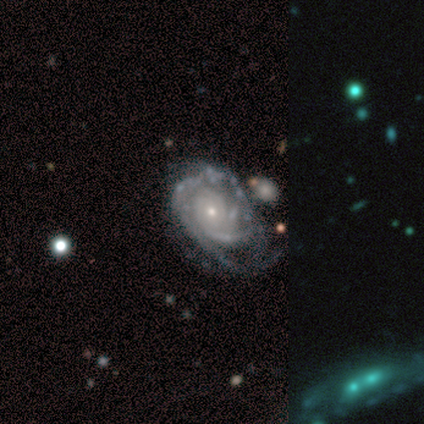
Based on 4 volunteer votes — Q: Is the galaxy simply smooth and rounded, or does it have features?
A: featured or disk — 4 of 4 (100%).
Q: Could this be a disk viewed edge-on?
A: no — 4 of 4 (100%).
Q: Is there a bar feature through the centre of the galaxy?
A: no — 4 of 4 (100%).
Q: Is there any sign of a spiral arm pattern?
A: yes — 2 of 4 (50%, tied with no).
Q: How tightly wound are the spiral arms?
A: tight — 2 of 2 (100%).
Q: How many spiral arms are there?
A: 1 — 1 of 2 (50%, tied with can't tell).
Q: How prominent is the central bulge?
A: small — 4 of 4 (100%).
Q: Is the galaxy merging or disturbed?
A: major disturbance — 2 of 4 (50%).